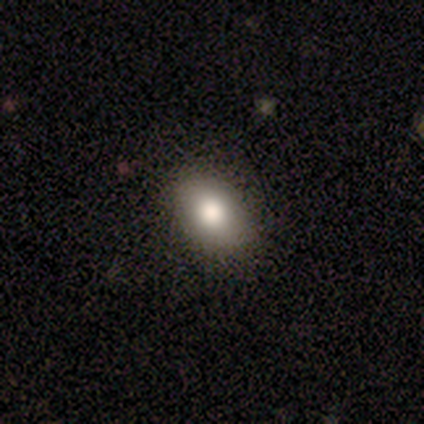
Q: Smooth or featured?
A: smooth (82%); runner-up: featured or disk (13%)
Q: How rounded?
A: in between (84%); runner-up: round (16%)
Q: Merging?
A: none (86%); runner-up: minor disturbance (11%)